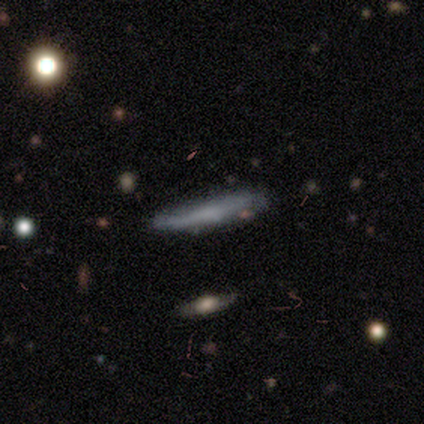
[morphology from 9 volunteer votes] Overall: smooth (67%; featured or disk 33%). How rounded: cigar-shaped (100%). Merging: none (78%).